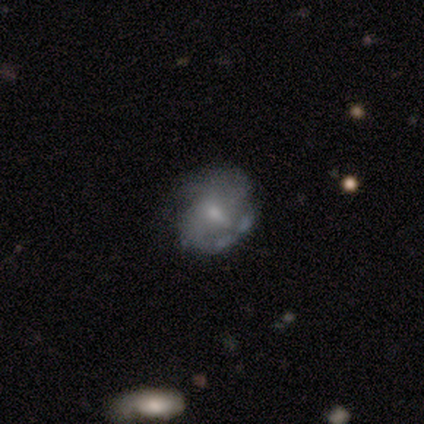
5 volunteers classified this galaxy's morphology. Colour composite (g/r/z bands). It shows a featured or disk galaxy (100%) with a weak bar (80%), 2 (67%) medium (67%) spiral arms (60%) and a moderate central bulge (60%). Merging: none (40%, tied with major disturbance).